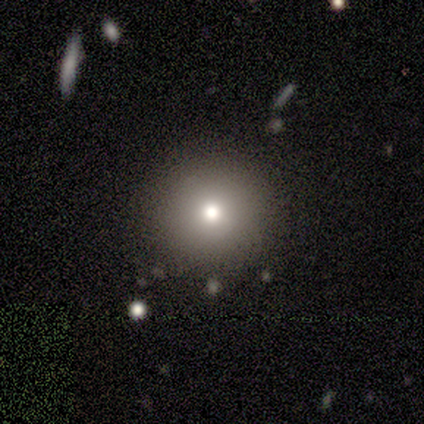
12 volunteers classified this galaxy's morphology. Q: Smooth or featured?
A: smooth (58%); runner-up: star or artifact (33%)
Q: How rounded?
A: round (100%)
Q: Merging?
A: none (88%); runner-up: major disturbance (12%)